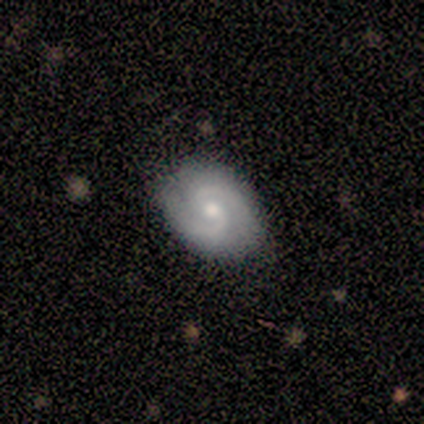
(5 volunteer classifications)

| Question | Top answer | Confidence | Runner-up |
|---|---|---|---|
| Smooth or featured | featured or disk | 100% | — |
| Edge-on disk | no | 100% | — |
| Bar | no | 60% | weak (40%) |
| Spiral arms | yes | 100% | — |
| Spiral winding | medium | 80% | tight (20%) |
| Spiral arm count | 2 | 100% | — |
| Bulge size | small | 60% | moderate (40%) |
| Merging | none | 100% | — |